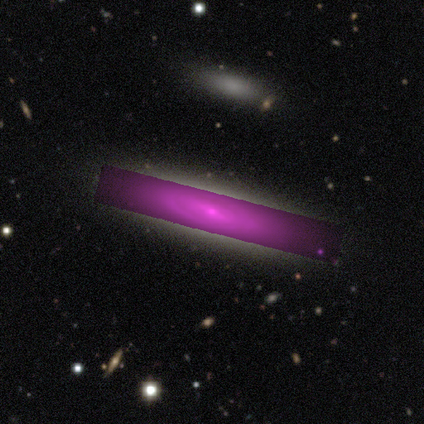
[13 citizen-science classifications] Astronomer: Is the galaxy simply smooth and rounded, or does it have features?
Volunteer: featured or disk — 46% (runner-up: star or artifact, 31%).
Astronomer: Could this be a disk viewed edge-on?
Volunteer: yes — 67%.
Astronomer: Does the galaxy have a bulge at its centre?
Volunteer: boxy — 50%, tied with rounded at 50%.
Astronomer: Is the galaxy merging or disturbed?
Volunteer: none — 89%.